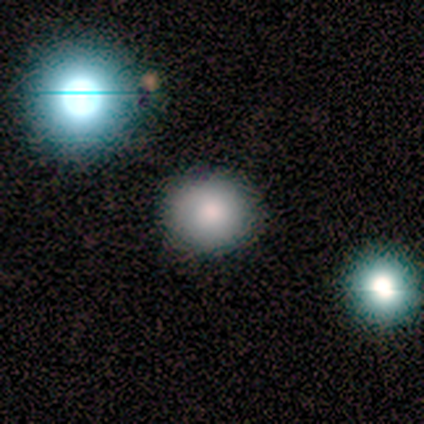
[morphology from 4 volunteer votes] This appears to be a smooth galaxy with no disk features (75%) that is round (100%). Merging: none (100%).